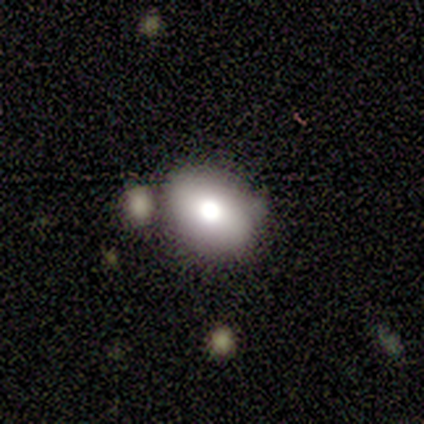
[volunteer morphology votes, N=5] Smooth or featured?
  - smooth: 60% *
  - featured or disk: 40%
  - star or artifact: 0%
How rounded?
  - in between: 100% *
  - round: 0%
  - cigar-shaped: 0%
Merging?
  - none: 80% *
  - merger: 20%
  - minor disturbance: 0%
  - major disturbance: 0%